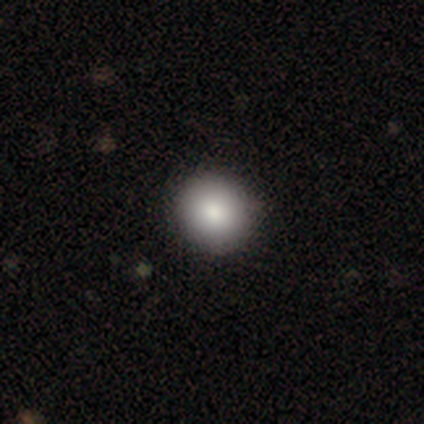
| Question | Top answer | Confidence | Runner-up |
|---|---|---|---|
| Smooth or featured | smooth | 88% | featured or disk (12%) |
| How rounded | round | 100% | — |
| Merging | none | 100% | — |